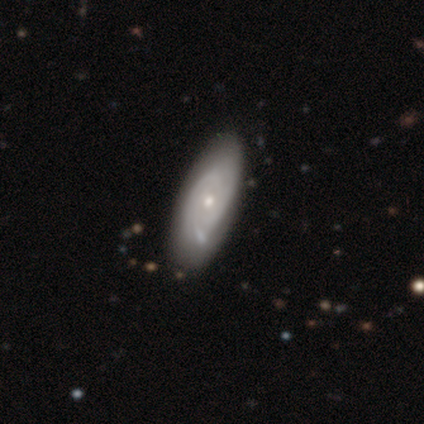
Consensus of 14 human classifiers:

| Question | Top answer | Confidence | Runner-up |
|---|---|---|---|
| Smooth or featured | featured or disk | 64% | star or artifact (21%) |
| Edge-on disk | no | 100% | — |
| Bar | no | 78% | weak (22%) |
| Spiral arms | yes | 100% | — |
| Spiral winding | tight | 56% | medium (44%) |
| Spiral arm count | can't tell | 56% | 2 (22%) |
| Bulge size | small | 78% | dominant (11%) |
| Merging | none | 73% | minor disturbance (18%) |